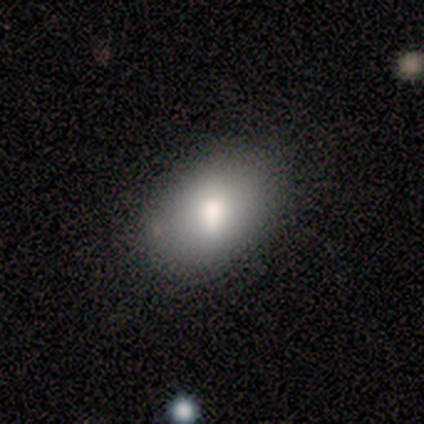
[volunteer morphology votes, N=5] Consensus on every question: smooth or featured — smooth (100%); how rounded — in between (100%); merging — none (100%).